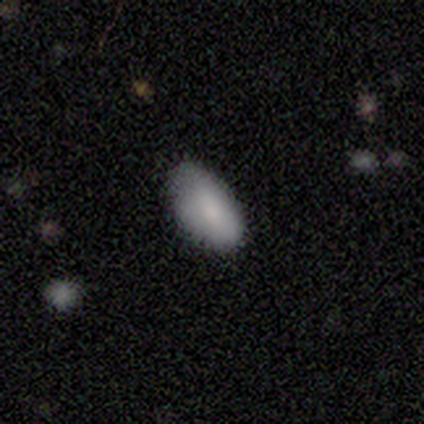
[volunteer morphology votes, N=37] Volunteers were most divided on "merging": none: 60%, minor disturbance: 29%, major disturbance: 11%, merger: 0%. More confident: how rounded — in between (86%); smooth or featured — smooth (78%).